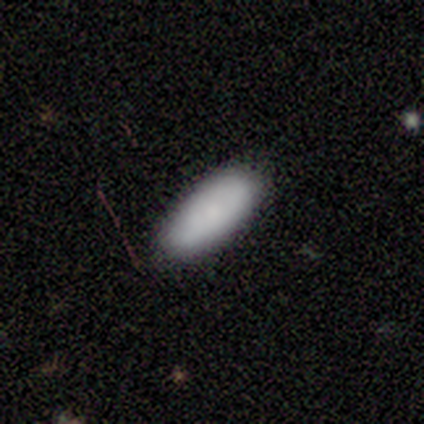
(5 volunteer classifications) smooth-or-featured: smooth: 60% | star or artifact: 40% | featured or disk: 0%
  how-rounded: in between: 67% | cigar-shaped: 33% | round: 0%
  merging: none: 100% | minor disturbance: 0% | major disturbance: 0% | merger: 0%